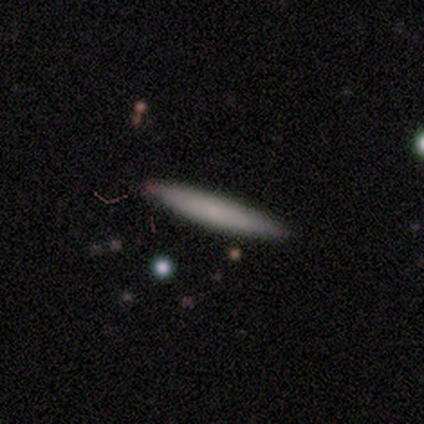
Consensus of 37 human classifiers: Q: Smooth or featured?
A: smooth (81%); runner-up: featured or disk (19%)
Q: How rounded?
A: cigar-shaped (97%); runner-up: in between (3%)
Q: Merging?
A: none (57%); runner-up: merger (3%)